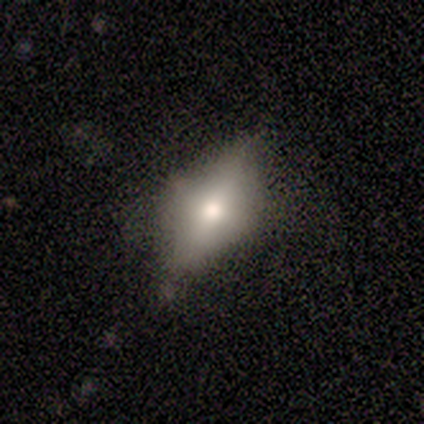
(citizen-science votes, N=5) Smooth or featured? featured or disk (80%)
Edge-on disk? no (75%)
Bar? no (67%)
Spiral arms? no (100%)
Bulge size? moderate (33%, tied with small and none)
Merging? none (50%, tied with minor disturbance)